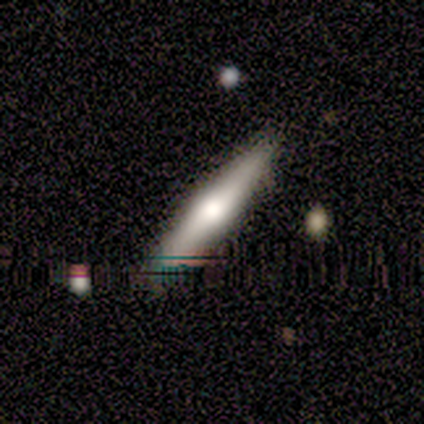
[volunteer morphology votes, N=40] featured or disk 62%, smooth 28%, star or artifact 10%. Down the decision tree: edge-on disk — yes (92%); edge-on bulge — rounded (96%); merging — none (89%).